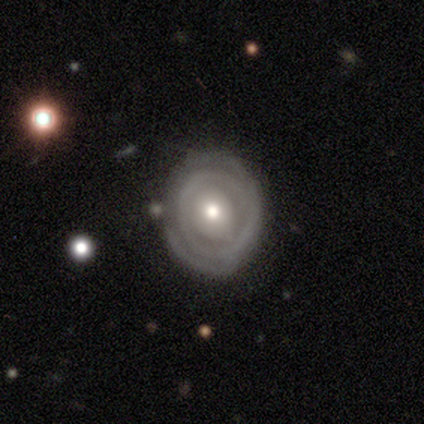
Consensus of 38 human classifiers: A featured or disk galaxy (82%) with no bar (83%), tight (84%) spiral arms (63%) and a moderate central bulge (63%). Merging: none (83%).